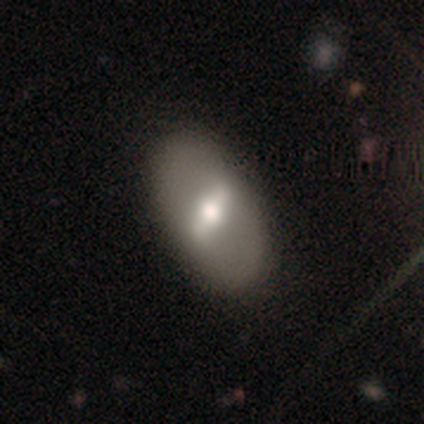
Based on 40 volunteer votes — Smooth or featured? 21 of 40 (52%) said featured or disk. Edge-on disk? 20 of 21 (95%) said no. Bar? 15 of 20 (75%) said strong. Spiral arms? 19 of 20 (95%) said no. Bulge size? 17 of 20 (85%) said moderate. Merging? 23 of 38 (61%) said none.